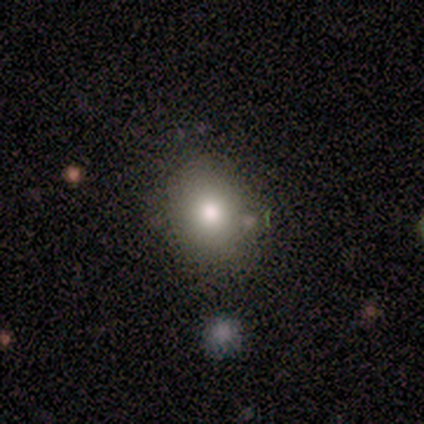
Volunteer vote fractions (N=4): Smooth or featured: smooth — 50% (featured or disk — 25%)
How rounded: round — 100%
Merging: none — 100%